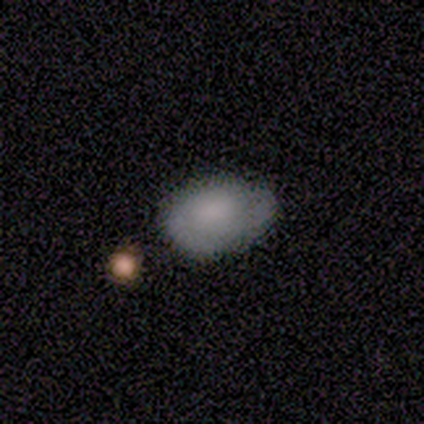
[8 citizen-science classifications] Smooth or featured? 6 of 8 (75%) said smooth. How rounded? 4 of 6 (67%) said in between. Merging? 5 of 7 (71%) said none.